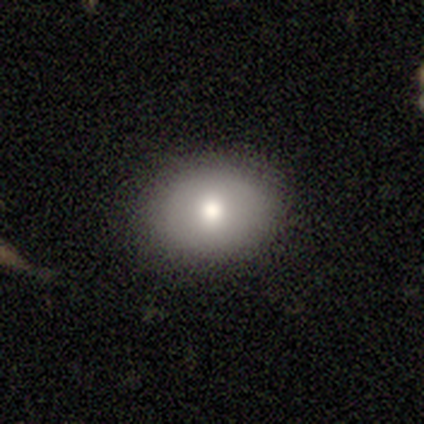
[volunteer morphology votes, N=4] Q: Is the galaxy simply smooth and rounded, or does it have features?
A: smooth — 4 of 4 (100%).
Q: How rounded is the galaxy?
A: in between — 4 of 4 (100%).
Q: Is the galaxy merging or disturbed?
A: none — 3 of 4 (75%).